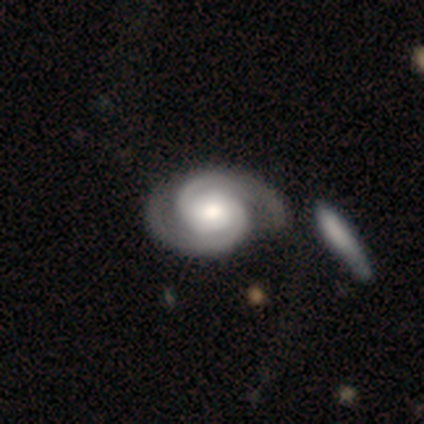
Overall: featured or disk (85%). Edge-on disk: no (100%). Bar: no (74%). Spiral arms: yes (98%). Spiral arm count: 2 (96%). Spiral winding: tight (65%; medium 30%). Bulge size: moderate (57%; large 26%). Merging: none (53%; minor disturbance 27%).